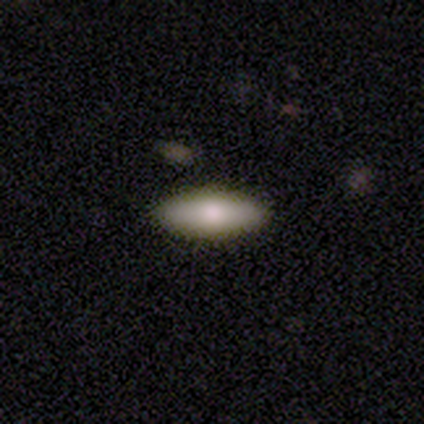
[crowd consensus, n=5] Smooth or featured? smooth (80%)
How rounded? in between (75%)
Merging? none (80%)